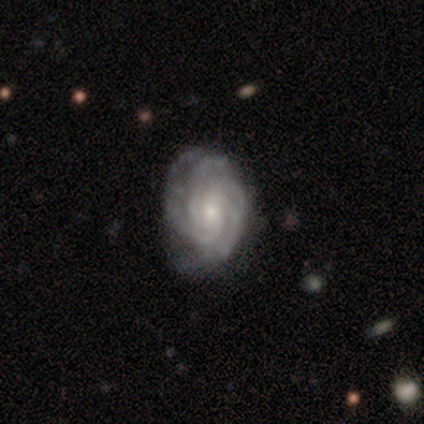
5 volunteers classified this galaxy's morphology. A featured or disk galaxy (100%) with no bar (80%), 3 (60%) tight (60%) spiral arms (100%) and a small central bulge (100%). Merging: none (100%).